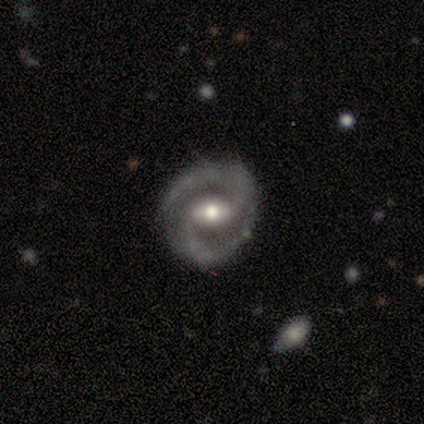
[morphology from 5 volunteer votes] Smooth or featured? 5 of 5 (100%) said featured or disk. Edge-on disk? 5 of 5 (100%) said no. Bar? 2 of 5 (40%, tied with weak) said strong. Spiral arms? 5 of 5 (100%) said yes. Spiral winding? 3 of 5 (60%) said medium. Spiral arm count? 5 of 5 (100%) said 2. Bulge size? 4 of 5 (80%) said moderate. Merging? 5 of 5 (100%) said none.